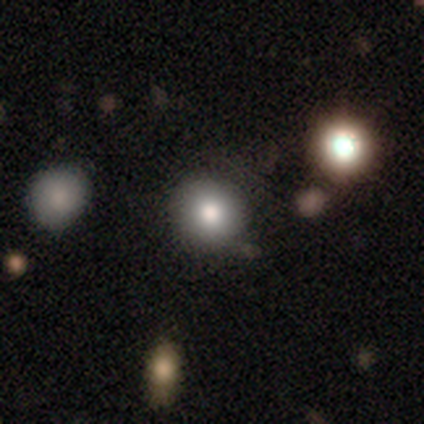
Volunteers were most divided on "merging": none: 39%, merger: 13%, minor disturbance: 7%, major disturbance: 1%. More confident: how rounded — round (95%); smooth or featured — smooth (85%).